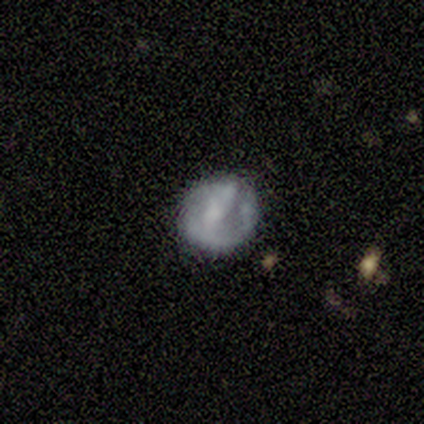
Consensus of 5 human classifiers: Morphology: type=featured or disk (60%); edge-on=no (100%); bar=strong (67%); spiral arms=yes (100%); winding=tight (67%); arm count=can't tell (67%); bulge=dominant (33%, tied with large and small); merging=none (40%, tied with minor disturbance).